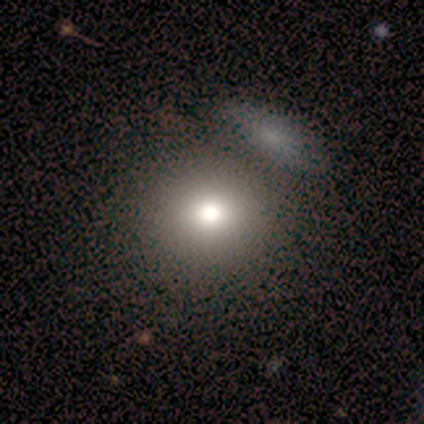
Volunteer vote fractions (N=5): This is likely a smooth galaxy (60%). How rounded: clearly round (100%). Merging: likely none (60%).